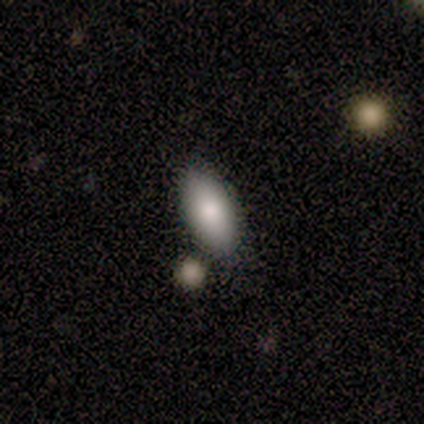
A smooth galaxy with no disk features (60%) that is in between round and cigar-shaped (100%). Merging: none (60%).